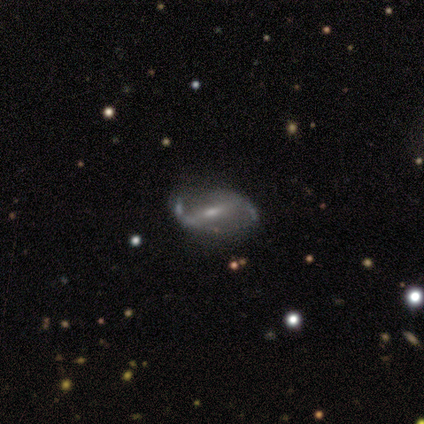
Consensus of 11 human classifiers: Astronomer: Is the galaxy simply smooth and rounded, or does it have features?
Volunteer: featured or disk — 82%.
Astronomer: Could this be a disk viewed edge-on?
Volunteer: no — 100%.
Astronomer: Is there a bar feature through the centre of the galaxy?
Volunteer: strong — 44% (runner-up: weak, 33%).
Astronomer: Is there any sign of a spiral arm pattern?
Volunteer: yes — 56% (runner-up: no, 44%).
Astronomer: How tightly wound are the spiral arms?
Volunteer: loose — 80%.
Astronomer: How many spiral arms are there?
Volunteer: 2 — 100%.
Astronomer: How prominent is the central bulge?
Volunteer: small — 67%.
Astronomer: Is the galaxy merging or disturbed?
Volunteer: none — 91%.